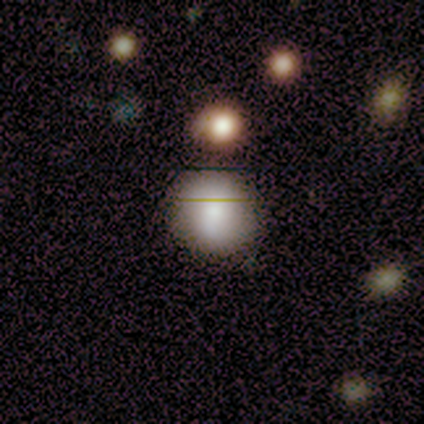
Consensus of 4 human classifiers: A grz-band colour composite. It shows a smooth galaxy with no disk features (75%) that is round (67%). Merging: minor disturbance (67%).